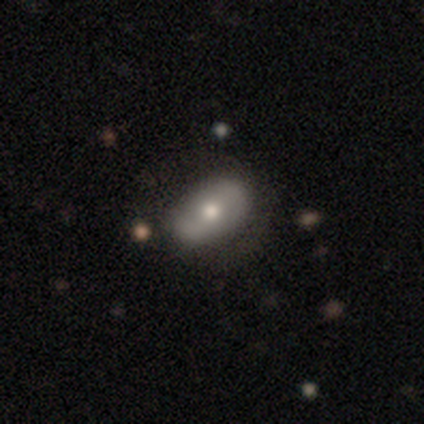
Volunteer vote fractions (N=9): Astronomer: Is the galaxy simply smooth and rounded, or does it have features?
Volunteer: smooth — 67%.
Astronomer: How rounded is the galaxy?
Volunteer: in between — 100%.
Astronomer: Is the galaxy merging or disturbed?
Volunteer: none — 89%.